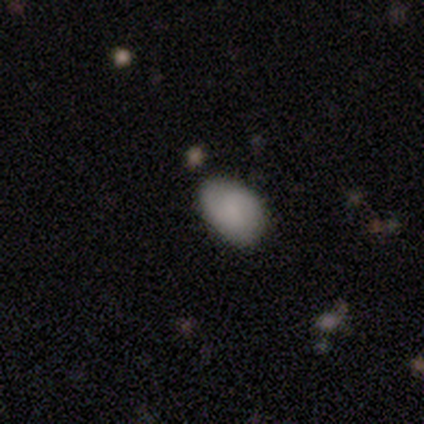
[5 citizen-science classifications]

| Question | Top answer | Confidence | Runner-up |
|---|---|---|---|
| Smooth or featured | smooth | 100% | — |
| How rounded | in between | 100% | — |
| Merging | none | 60% | minor disturbance (40%) |